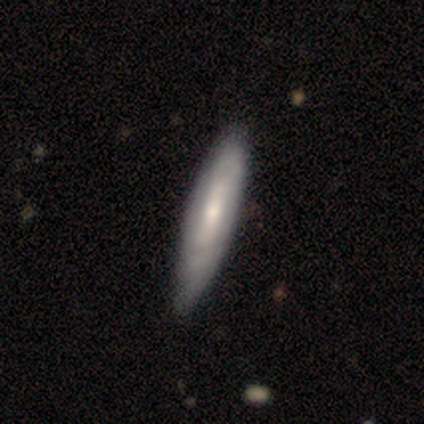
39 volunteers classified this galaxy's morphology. Smooth or featured: smooth — 56% (featured or disk — 44%)
How rounded: cigar-shaped — 64% (in between — 36%)
Merging: none — 46% (minor disturbance — 28%)